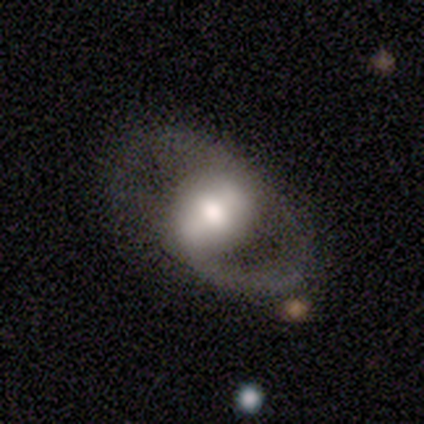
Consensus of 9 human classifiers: Smooth or featured: featured or disk — 67% (smooth — 33%)
Edge-on disk: no — 83% (yes — 17%)
Bar: weak — 60% (strong — 20%)
Spiral arms: yes — 80% (no — 20%)
Spiral winding: loose — 75% (medium — 25%)
Spiral arm count: 2 — 50% (tied with can't tell — 50%)
Bulge size: moderate — 60% (large — 40%)
Merging: none — 33% (tied with minor disturbance — 33%)